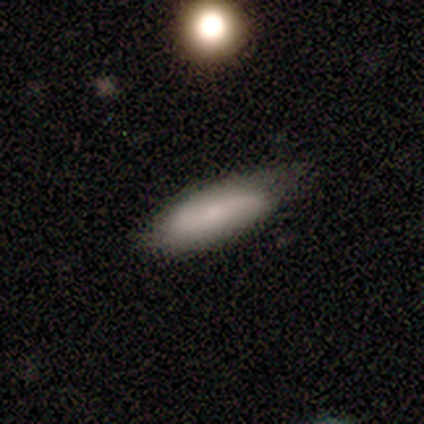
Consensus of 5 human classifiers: Morphology: type=smooth (60%); roundness=in between (67%); merging=none (100%).